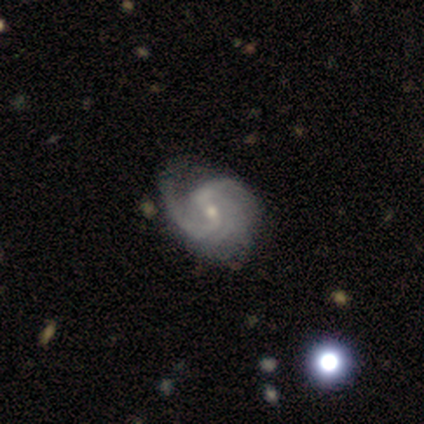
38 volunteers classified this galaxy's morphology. Smooth or featured? 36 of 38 (95%) said featured or disk. Edge-on disk? 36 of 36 (100%) said no. Bar? 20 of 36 (56%) said weak. Spiral arms? 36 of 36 (100%) said yes. Spiral winding? 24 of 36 (67%) said medium. Spiral arm count? 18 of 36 (50%) said 2. Bulge size? 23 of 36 (64%) said small. Merging? 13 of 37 (35%) said none.